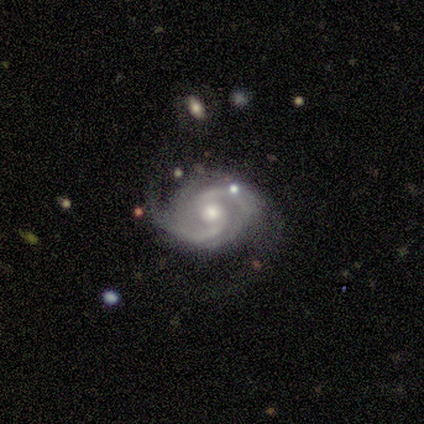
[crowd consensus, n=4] This is clearly a featured or disk galaxy (100%). It is clearly not viewed edge-on (100%). Bar: clearly no (100%). Spiral arm pattern: clearly yes (100%). Spiral arm count: clearly 2 (100%). Spiral winding: likely medium (75%). Central bulge: possibly moderate (50%). Merging: likely none (75%).